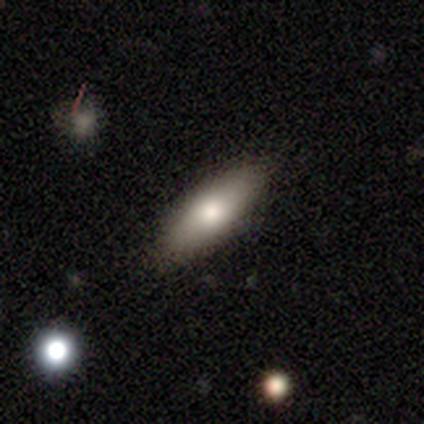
smooth 67%, featured or disk 20%, star or artifact 13%. Down the decision tree: how rounded — in between (80%); merging — none (69%).